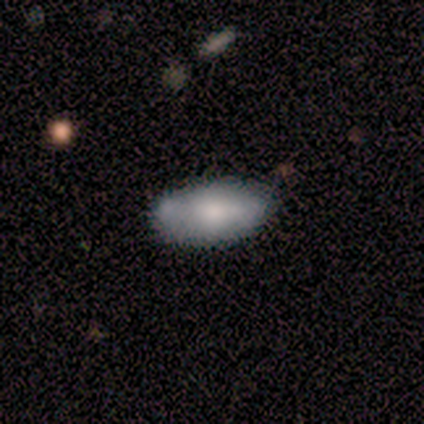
Smooth or featured: smooth — 67% (featured or disk — 31%)
How rounded: in between — 96% (round — 4%)
Merging: none — 53% (minor disturbance — 21%)